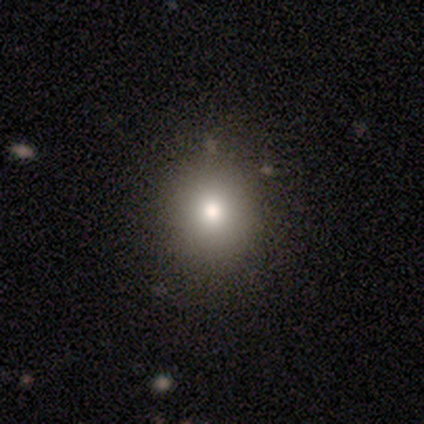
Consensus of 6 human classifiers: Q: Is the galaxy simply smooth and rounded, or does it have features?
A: smooth — 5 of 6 (83%).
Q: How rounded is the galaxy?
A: round — 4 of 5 (80%).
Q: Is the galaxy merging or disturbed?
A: none — 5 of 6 (83%).